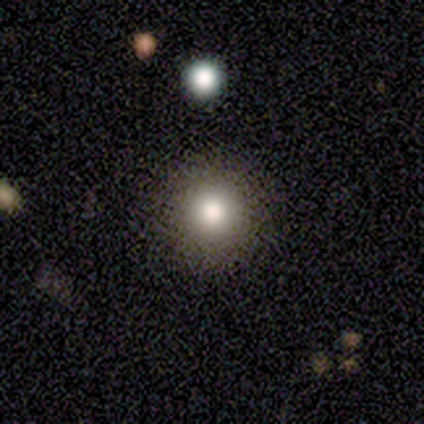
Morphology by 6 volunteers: smooth 100%, featured or disk 0%, star or artifact 0%. Down the decision tree: how rounded — round (100%); merging — none (100%).